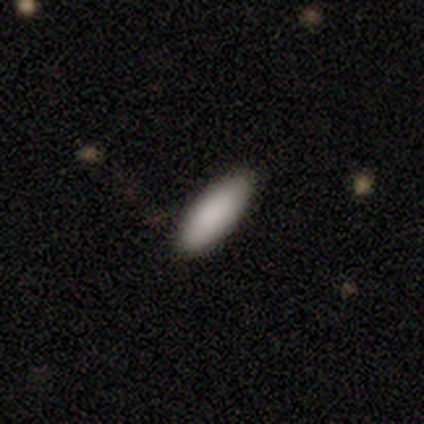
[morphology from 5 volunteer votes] Smooth or featured? 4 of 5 (80%) said smooth. How rounded? 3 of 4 (75%) said cigar-shaped. Merging? 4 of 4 (100%) said none.